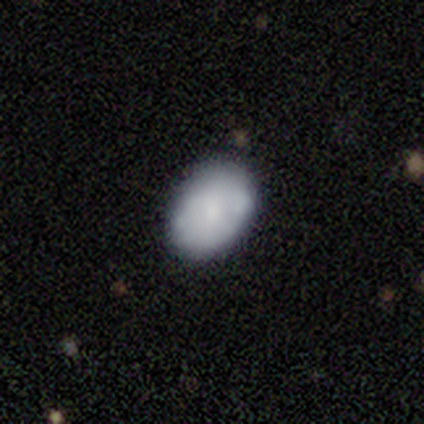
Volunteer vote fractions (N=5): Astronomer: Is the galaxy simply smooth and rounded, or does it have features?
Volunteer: smooth — 60% (runner-up: featured or disk, 40%).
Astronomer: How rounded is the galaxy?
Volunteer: in between — 67%.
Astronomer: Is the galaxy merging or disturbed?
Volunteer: minor disturbance — 60% (runner-up: none, 40%).